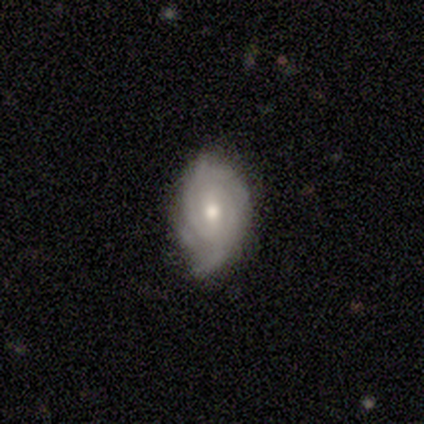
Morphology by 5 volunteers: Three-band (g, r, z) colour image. It shows a featured or disk galaxy (80%) with a weak bar (50%, tied with no), 2 (33%, tied with 3 and can't tell) tight (67%) spiral arms (75%) and a moderate central bulge (50%, tied with small). Merging: none (60%).